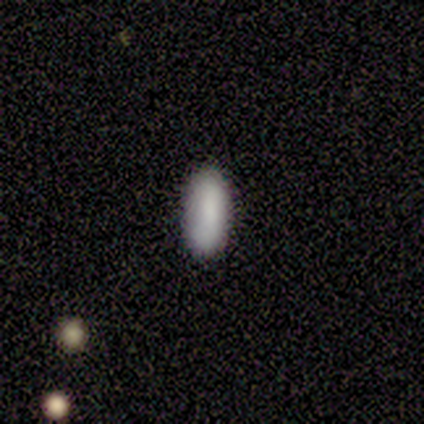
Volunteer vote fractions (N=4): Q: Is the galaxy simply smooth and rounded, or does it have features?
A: smooth — 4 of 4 (100%).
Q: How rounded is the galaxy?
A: in between — 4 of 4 (100%).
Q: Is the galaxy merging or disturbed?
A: none — 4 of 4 (100%).